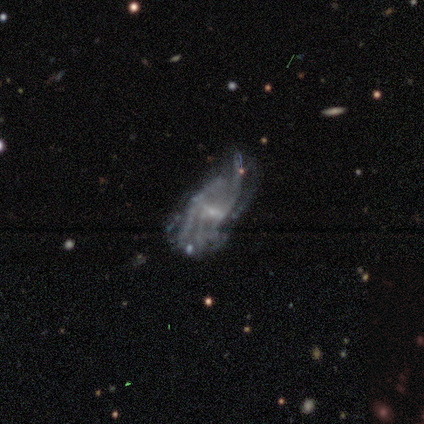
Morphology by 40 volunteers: Smooth or featured: featured or disk — 78% (star or artifact — 15%)
Edge-on disk: no — 100%
Bar: weak — 48% (no — 42%)
Spiral arms: yes — 68% (no — 32%)
Spiral winding: loose — 43% (medium — 38%)
Spiral arm count: can't tell — 57% (4 — 24%)
Bulge size: small — 65% (moderate — 19%)
Merging: major disturbance — 47% (minor disturbance — 24%)